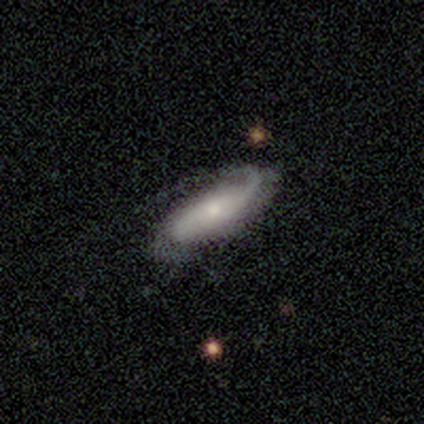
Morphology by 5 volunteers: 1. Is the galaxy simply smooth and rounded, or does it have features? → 80% featured or disk, 20% smooth, 0% star or artifact.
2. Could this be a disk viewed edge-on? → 100% no, 0% yes.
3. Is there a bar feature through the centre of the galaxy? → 100% no, 0% strong, 0% weak.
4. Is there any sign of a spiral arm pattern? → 75% yes, 25% no.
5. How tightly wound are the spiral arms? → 33% tight (tied), 33% medium (tied), 33% loose (tied).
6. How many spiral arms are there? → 100% 2, 0% 1, 0% 3, 0% 4, 0% more than 4, 0% can't tell.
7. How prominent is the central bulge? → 75% small, 25% moderate, 0% dominant, 0% large, 0% none.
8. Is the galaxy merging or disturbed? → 80% none, 20% major disturbance, 0% minor disturbance, 0% merger.